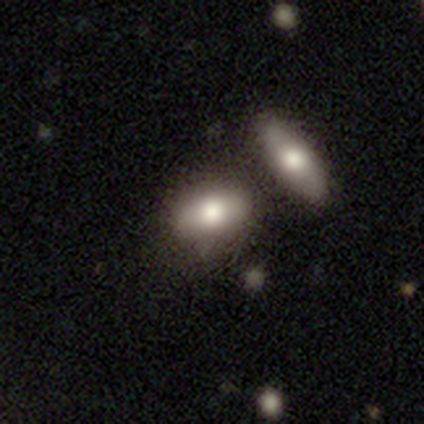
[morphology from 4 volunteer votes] This is possibly a smooth galaxy (50%, tied with featured or disk). How rounded: possibly in between (50%, tied with cigar-shaped). Merging: clearly none (100%).